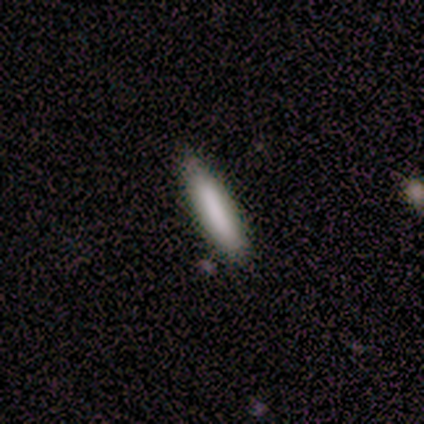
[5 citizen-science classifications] Overall: smooth (80%). How rounded: cigar-shaped (75%). Merging: none (100%).